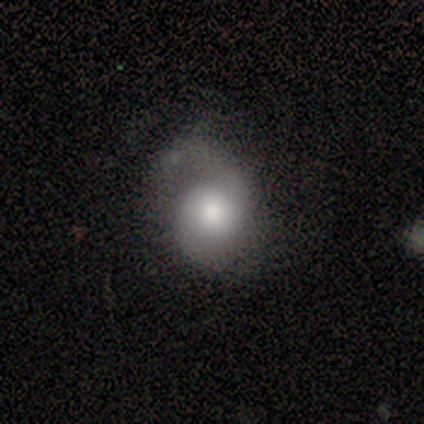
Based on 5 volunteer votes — A smooth galaxy with no disk features (40%, tied with featured or disk) that is in between round and cigar-shaped (100%).

Vote fractions:
- Smooth or featured? smooth: 40% (tied) / featured or disk: 40% (tied) / star or artifact: 20%
- How rounded? in between: 100% / round: 0% / cigar-shaped: 0%
- Merging? none: 50% / minor disturbance: 25% / major disturbance: 25% / merger: 0%